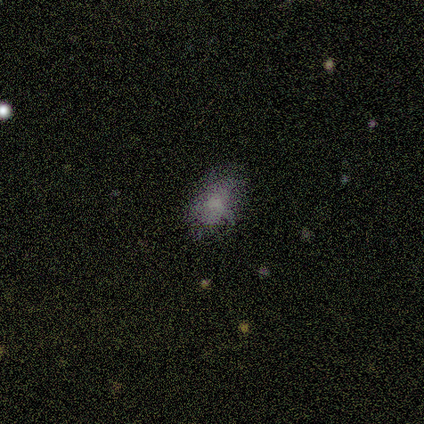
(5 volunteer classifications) smooth-or-featured: smooth: 60% | featured or disk: 20% | star or artifact: 20%
  how-rounded: in between: 67% | cigar-shaped: 33% | round: 0%
  merging: minor disturbance: 50% (tied) | major disturbance: 50% (tied) | none: 0% | merger: 0%